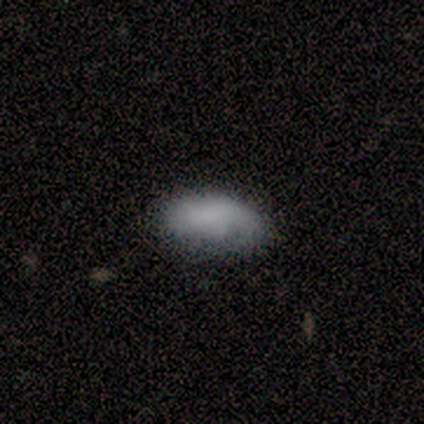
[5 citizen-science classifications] A smooth galaxy with no disk features (80%) that is in between round and cigar-shaped (100%).

Vote fractions:
- Smooth or featured? smooth: 80% / featured or disk: 20% / star or artifact: 0%
- How rounded? in between: 100% / round: 0% / cigar-shaped: 0%
- Merging? minor disturbance: 60% / none: 40% / major disturbance: 0% / merger: 0%